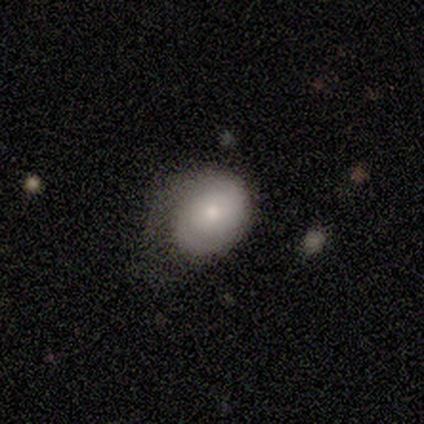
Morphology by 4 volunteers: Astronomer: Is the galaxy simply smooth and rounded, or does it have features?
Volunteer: smooth — 75%.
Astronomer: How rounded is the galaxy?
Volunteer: in between — 67%.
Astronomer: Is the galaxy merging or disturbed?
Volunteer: none — 50%, tied with major disturbance at 50%.